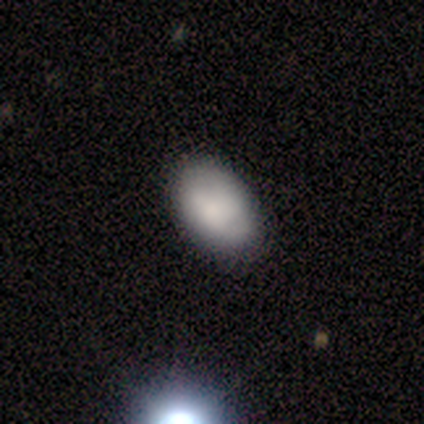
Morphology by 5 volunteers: A smooth galaxy with no disk features (100%) that is in between round and cigar-shaped (100%).

Vote fractions:
- Smooth or featured? smooth: 100% / featured or disk: 0% / star or artifact: 0%
- How rounded? in between: 100% / round: 0% / cigar-shaped: 0%
- Merging? none: 80% / minor disturbance: 20% / major disturbance: 0% / merger: 0%